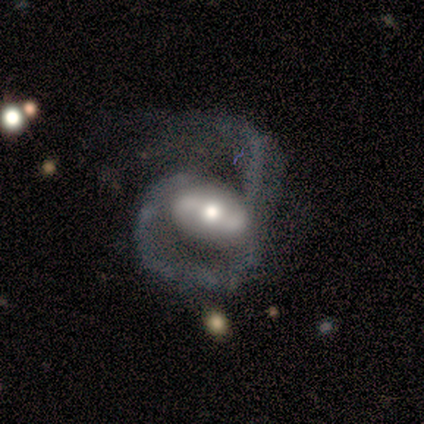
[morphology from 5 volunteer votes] Overall: featured or disk (100%). Edge-on disk: no (100%). Bar: weak (60%; strong 40%). Spiral arms: yes (100%). Spiral arm count: 2 (60%; 1 40%). Spiral winding: loose (60%; medium 40%). Bulge size: moderate (60%; small 40%). Merging: none (40%, tied with major disturbance).